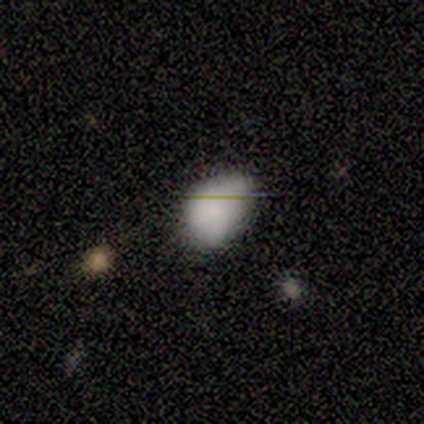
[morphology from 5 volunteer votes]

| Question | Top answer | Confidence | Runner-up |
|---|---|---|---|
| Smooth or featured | smooth | 80% | star or artifact (20%) |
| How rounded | round | 50% | tied: in between (50%) |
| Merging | none | 75% | minor disturbance (25%) |